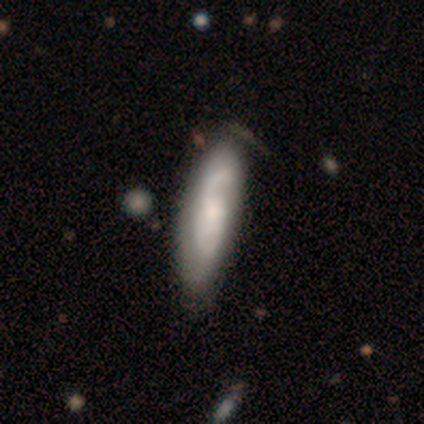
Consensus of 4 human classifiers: Morphology: type=featured or disk (75%); edge-on=no (100%); bar=no (67%); spiral arms=yes (100%); winding=medium (67%); arm count=2 (67%); bulge=small (67%); merging=none (75%).